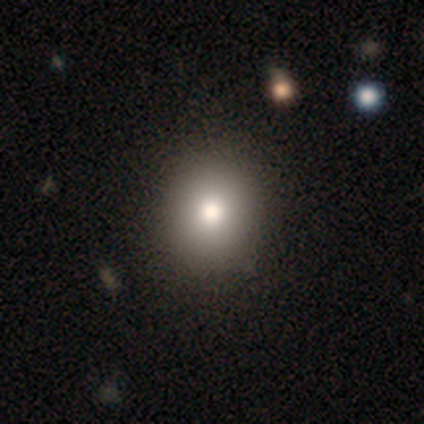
Smooth or featured?
  - smooth: 50% *
  - star or artifact: 33%
  - featured or disk: 17%
How rounded?
  - round: 67% *
  - in between: 33%
  - cigar-shaped: 0%
Merging?
  - none: 100% *
  - minor disturbance: 0%
  - major disturbance: 0%
  - merger: 0%